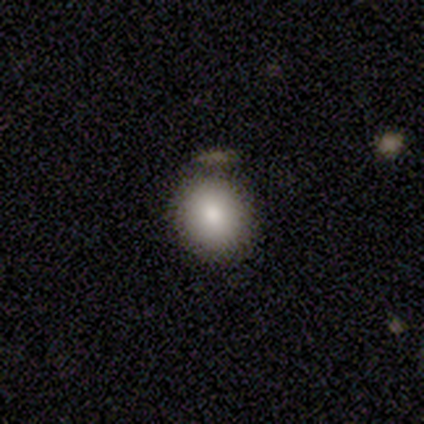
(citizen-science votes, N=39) Volunteers were most divided on "merging": none: 75%, minor disturbance: 14%, major disturbance: 6%, merger: 6%. More confident: how rounded — round (84%); smooth or featured — smooth (79%).